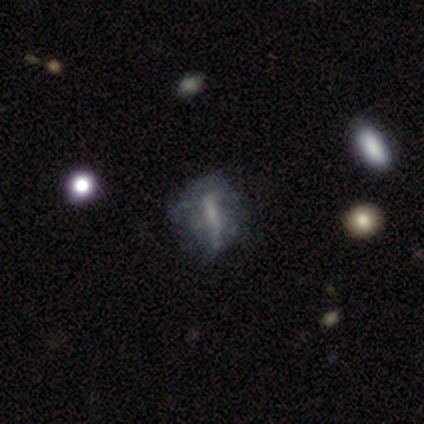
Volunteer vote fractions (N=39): smooth-or-featured: featured or disk: 64% | smooth: 26% | star or artifact: 10%
  disk-edge-on: no: 92% | yes: 8%
    bar: weak: 43% | no: 30% | strong: 26%
    has-spiral-arms: no: 78% | yes: 22%
    bulge-size: small: 43% (tied) | none: 43% (tied) | moderate: 13% | dominant: 0% | large: 0%
  merging: none: 54% | minor disturbance: 26% | major disturbance: 20% | merger: 0%